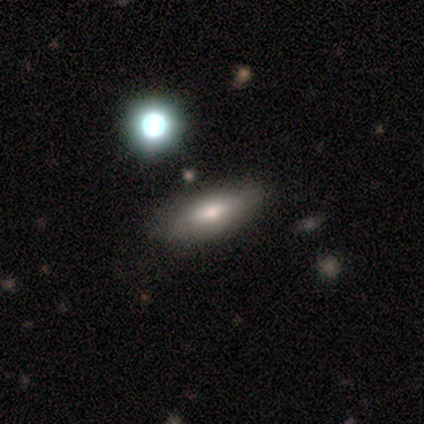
smooth 80%, featured or disk 20%, star or artifact 0%. Down the decision tree: how rounded — in between (75%); merging — none (100%).